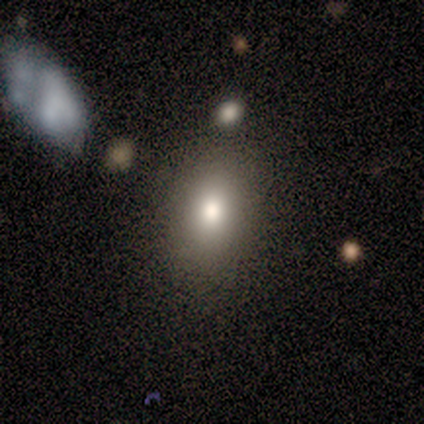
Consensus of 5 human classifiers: This appears to be a smooth galaxy with no disk features (80%) that is in between round and cigar-shaped (100%). Merging: none (100%).